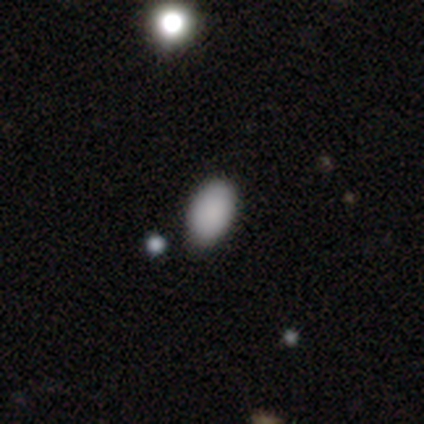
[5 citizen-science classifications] This appears to be a smooth galaxy with no disk features (80%) that is in between round and cigar-shaped (100%). Merging: none (50%, tied with minor disturbance).